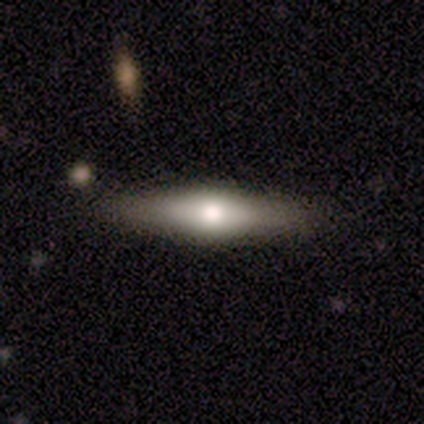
Overall: featured or disk (80%). Edge-on disk: yes (100%). Edge-on bulge: rounded (100%). Merging: none (60%; minor disturbance 20%).